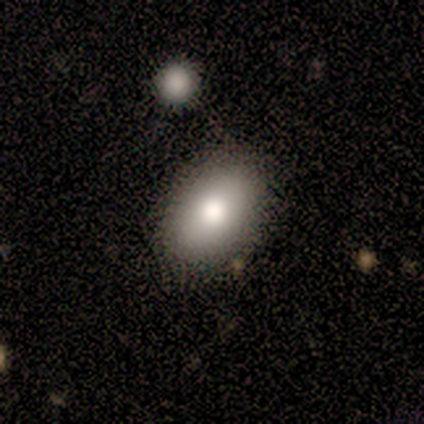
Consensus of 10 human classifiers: Q: Smooth or featured?
A: smooth (80%); runner-up: featured or disk (10%)
Q: How rounded?
A: in between (75%); runner-up: round (25%)
Q: Merging?
A: none (78%); runner-up: minor disturbance (22%)